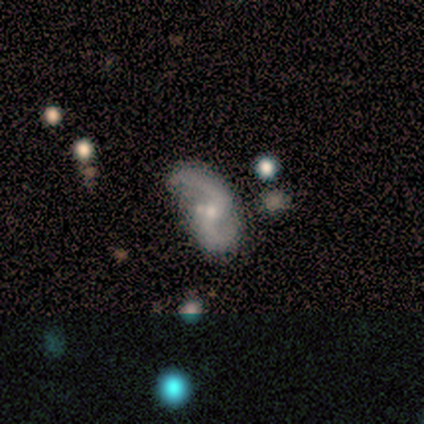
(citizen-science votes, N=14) Q: Smooth or featured?
A: featured or disk (71%); runner-up: smooth (21%)
Q: Edge-on disk?
A: no (100%)
Q: Bar?
A: no (70%); runner-up: weak (20%)
Q: Spiral arms?
A: yes (90%); runner-up: no (10%)
Q: Spiral winding?
A: loose (56%); runner-up: medium (33%)
Q: Spiral arm count?
A: 2 (100%)
Q: Bulge size?
A: small (70%); runner-up: moderate (20%)
Q: Merging?
A: none (46%); runner-up: major disturbance (31%)